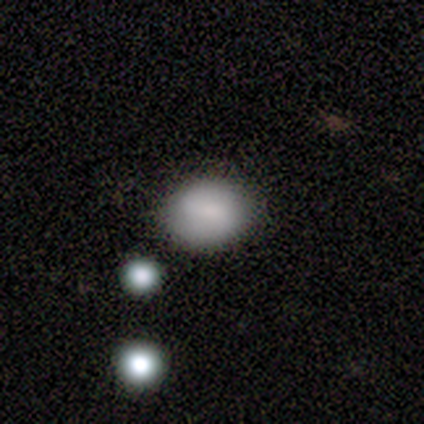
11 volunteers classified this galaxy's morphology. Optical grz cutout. It shows a smooth galaxy with no disk features (82%) that is round (78%). Merging: none (91%).